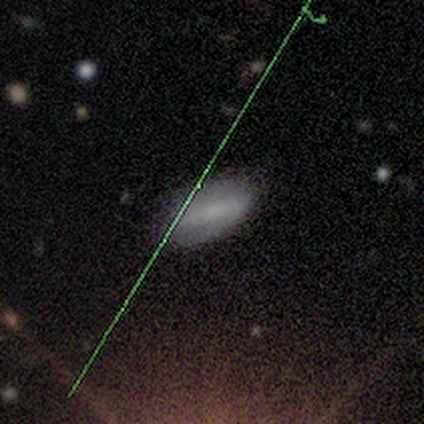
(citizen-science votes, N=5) smooth-or-featured: smooth: 100% | featured or disk: 0% | star or artifact: 0%
  how-rounded: in between: 80% | cigar-shaped: 20% | round: 0%
  merging: none: 80% | minor disturbance: 20% | major disturbance: 0% | merger: 0%